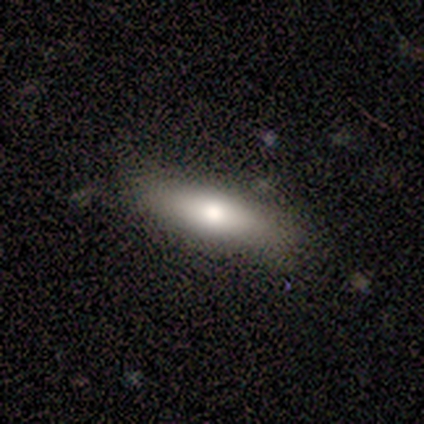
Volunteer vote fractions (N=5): Smooth or featured? smooth (80%)
How rounded? cigar-shaped (75%)
Merging? none (80%)